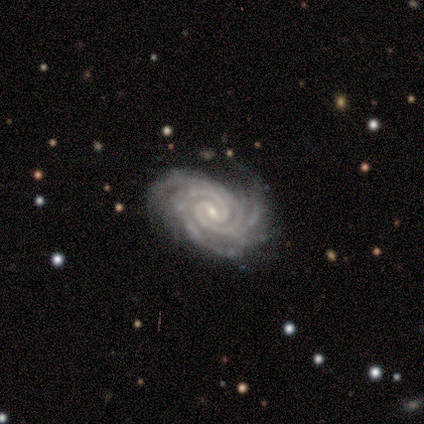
Smooth or featured?
  - featured or disk: 100% *
  - smooth: 0%
  - star or artifact: 0%
Edge-on disk?
  - no: 100% *
  - yes: 0%
Bar?
  - weak: 65% *
  - no: 25%
  - strong: 10%
Spiral arms?
  - yes: 100% *
  - no: 0%
Spiral winding?
  - tight: 80% *
  - medium: 15%
  - loose: 5%
Spiral arm count?
  - 2: 40% *
  - 3: 30%
  - 4: 30%
  - 1: 0%
  - more than 4: 0%
  - can't tell: 0%
Bulge size?
  - small: 80% *
  - moderate: 10%
  - none: 10%
  - dominant: 0%
  - large: 0%
Merging?
  - none: 80% *
  - minor disturbance: 15%
  - major disturbance: 5%
  - merger: 0%